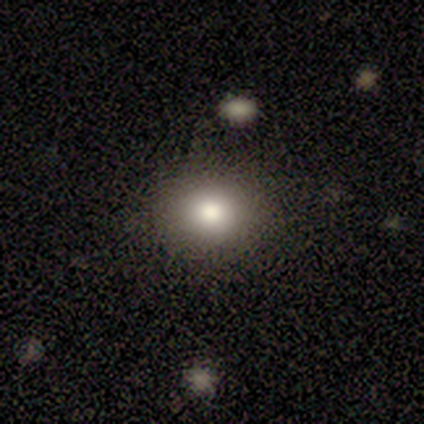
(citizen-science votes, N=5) smooth 80%, star or artifact 20%, featured or disk 0%. Down the decision tree: how rounded — round (100%); merging — none (75%).